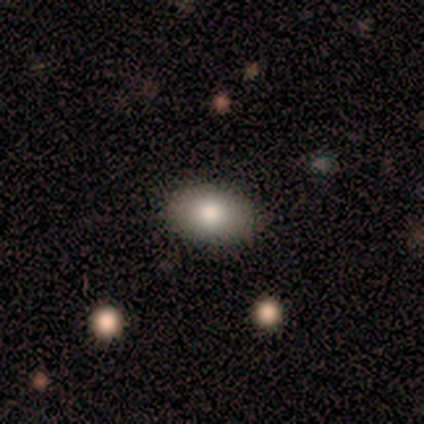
A smooth galaxy with no disk features (100%) that is in between round and cigar-shaped (100%).

Vote fractions:
- Smooth or featured? smooth: 100% / featured or disk: 0% / star or artifact: 0%
- How rounded? in between: 100% / round: 0% / cigar-shaped: 0%
- Merging? none: 75% / major disturbance: 25% / minor disturbance: 0% / merger: 0%